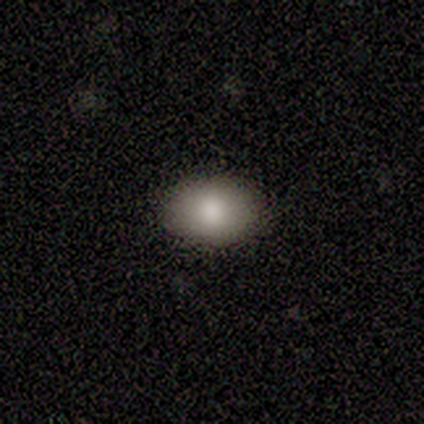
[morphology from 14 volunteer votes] Smooth or featured? 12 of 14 (86%) said smooth. How rounded? 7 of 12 (58%) said in between. Merging? 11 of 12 (92%) said none.